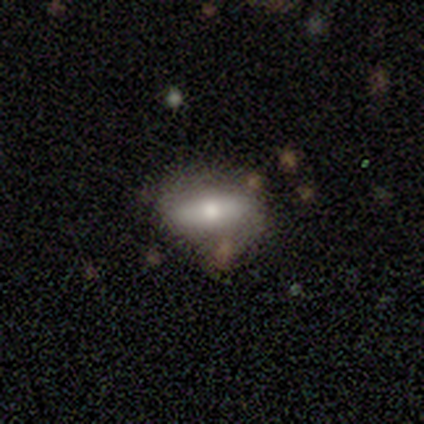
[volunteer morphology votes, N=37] This appears to be a smooth galaxy with no disk features (54%) that is in between round and cigar-shaped (85%). Merging: none (66%).